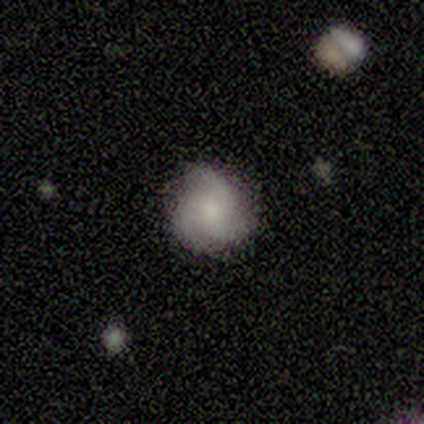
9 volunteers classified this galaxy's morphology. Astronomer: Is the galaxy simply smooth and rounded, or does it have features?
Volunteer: featured or disk — 56% (runner-up: smooth, 44%).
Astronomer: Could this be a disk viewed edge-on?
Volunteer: no — 100%.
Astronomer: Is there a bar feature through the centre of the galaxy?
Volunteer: no — 80%.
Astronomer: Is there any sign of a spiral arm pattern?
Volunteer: yes — 100%.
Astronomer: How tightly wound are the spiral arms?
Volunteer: medium — 60%.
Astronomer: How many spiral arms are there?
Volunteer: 3 — 100%.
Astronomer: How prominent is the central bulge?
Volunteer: moderate — 40%, tied with small at 40%.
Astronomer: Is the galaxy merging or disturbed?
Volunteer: none — 89%.